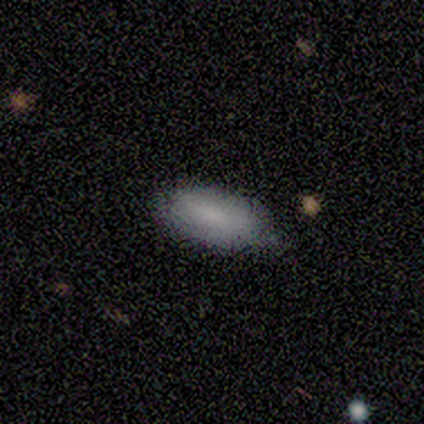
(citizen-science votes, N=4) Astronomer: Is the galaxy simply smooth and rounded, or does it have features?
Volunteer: smooth — 100%.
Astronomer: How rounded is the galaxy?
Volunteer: in between — 100%.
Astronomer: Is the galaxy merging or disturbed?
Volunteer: none — 100%.